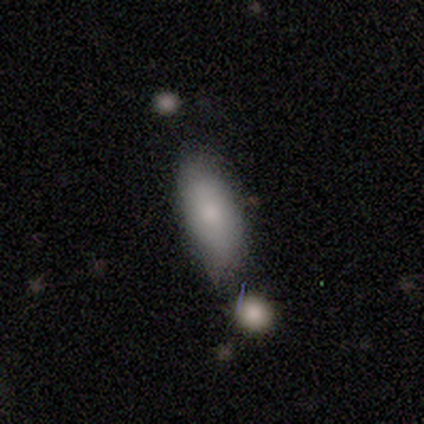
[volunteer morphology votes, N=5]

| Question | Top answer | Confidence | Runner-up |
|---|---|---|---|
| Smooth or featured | smooth | 100% | — |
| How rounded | in between | 100% | — |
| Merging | minor disturbance | 60% | merger (40%) |